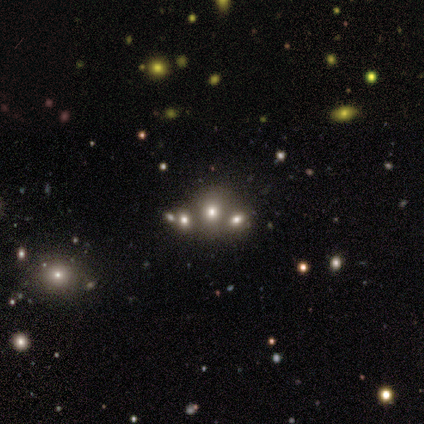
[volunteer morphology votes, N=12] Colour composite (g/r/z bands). It shows a smooth galaxy with no disk features (58%) that is round (71%). Merging: none (50%, tied with merger).